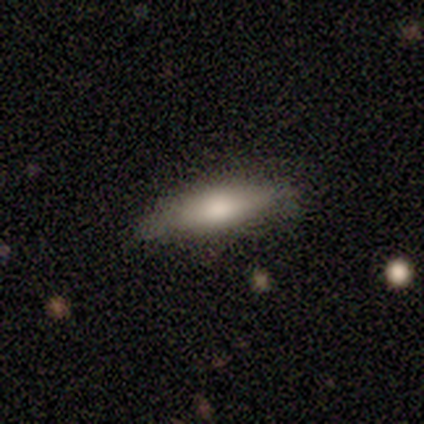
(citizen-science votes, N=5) Overall: smooth (60%; featured or disk 40%). How rounded: cigar-shaped (67%; in between 33%). Merging: none (100%).